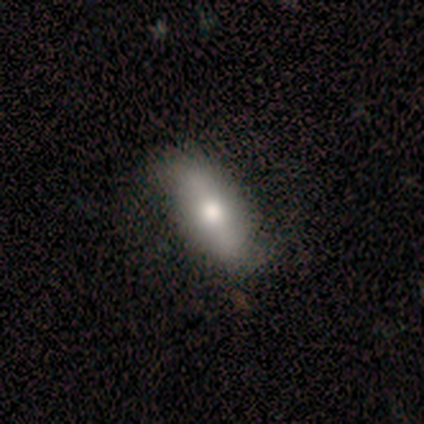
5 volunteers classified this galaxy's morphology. Q: Smooth or featured?
A: smooth (60%); runner-up: featured or disk (40%)
Q: How rounded?
A: in between (67%); runner-up: cigar-shaped (33%)
Q: Merging?
A: none (100%)